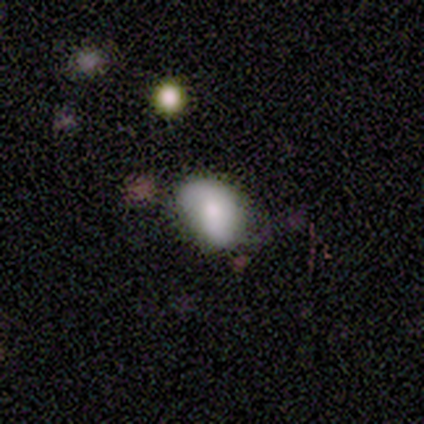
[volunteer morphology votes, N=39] Volunteers were most divided on "smooth or featured": smooth: 54%, featured or disk: 38%, star or artifact: 8%. More confident: how rounded — in between (95%); merging — none (53%).